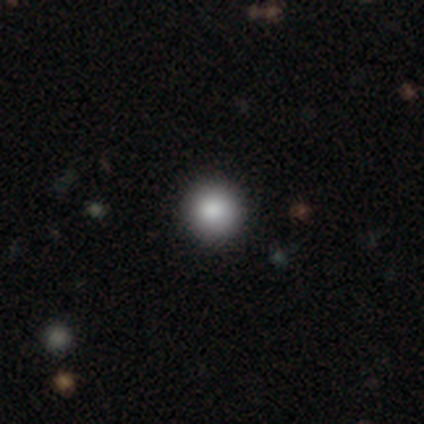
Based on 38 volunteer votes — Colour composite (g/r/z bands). It shows a smooth galaxy with no disk features (87%) that is round (97%). Merging: none (83%).